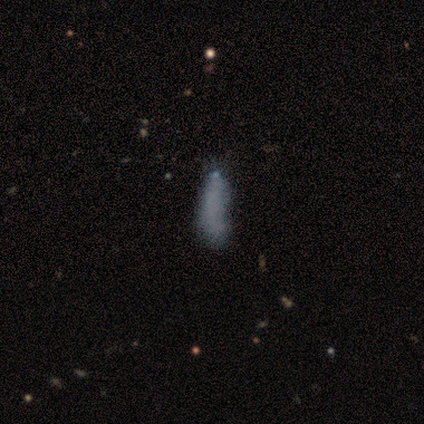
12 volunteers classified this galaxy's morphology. Q: Smooth or featured?
A: smooth (67%); runner-up: featured or disk (17%)
Q: How rounded?
A: cigar-shaped (62%); runner-up: in between (38%)
Q: Merging?
A: none (50%); runner-up: major disturbance (30%)